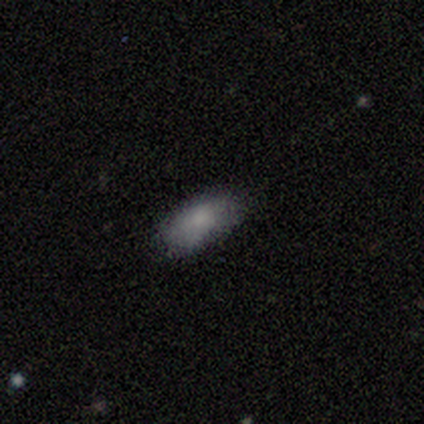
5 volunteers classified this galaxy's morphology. smooth 80%, featured or disk 20%, star or artifact 0%. Down the decision tree: how rounded — in between (100%); merging — none (80%).